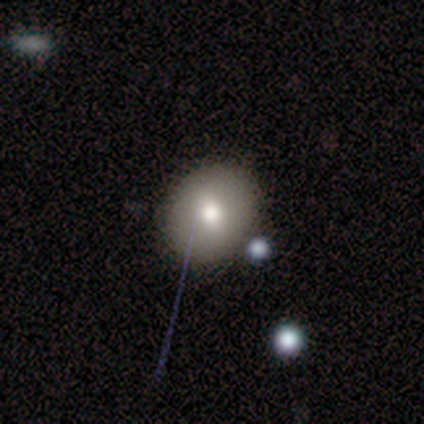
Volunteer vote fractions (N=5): Morphology: type=smooth (60%); roundness=round (67%); merging=none (100%).